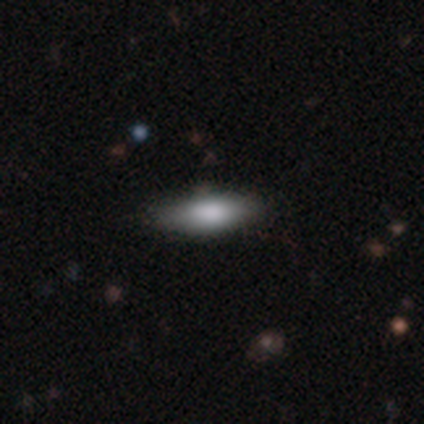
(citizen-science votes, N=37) Smooth or featured?
  - smooth: 84% *
  - featured or disk: 16%
  - star or artifact: 0%
How rounded?
  - in between: 52% *
  - cigar-shaped: 48%
  - round: 0%
Merging?
  - none: 78% *
  - minor disturbance: 11%
  - major disturbance: 8%
  - merger: 3%